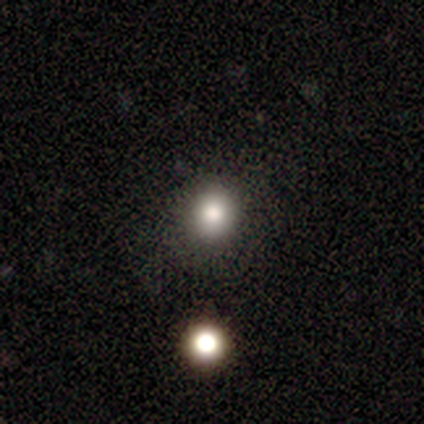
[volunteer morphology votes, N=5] A smooth galaxy with no disk features (60%) that is round (100%). Merging: none (67%).